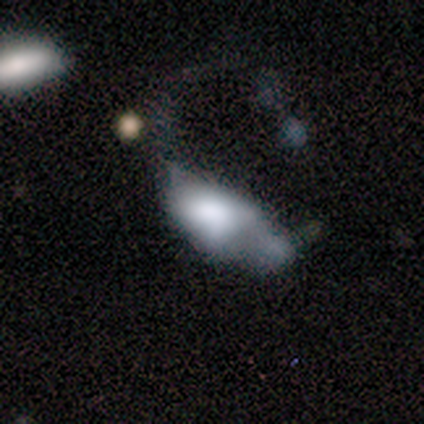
smooth-or-featured: smooth: 60% | featured or disk: 40% | star or artifact: 0%
  how-rounded: in between: 100% | round: 0% | cigar-shaped: 0%
  merging: major disturbance: 60% | minor disturbance: 20% | merger: 20% | none: 0%